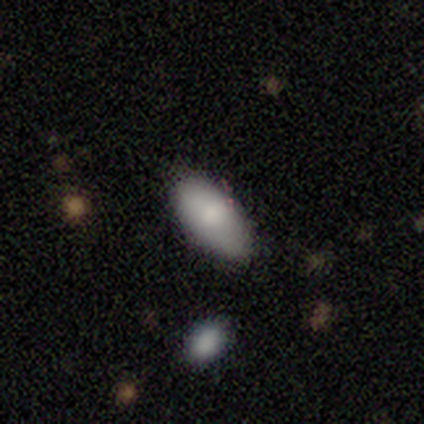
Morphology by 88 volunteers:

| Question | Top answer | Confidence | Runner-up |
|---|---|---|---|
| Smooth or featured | smooth | 84% | featured or disk (12%) |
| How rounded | in between | 93% | cigar-shaped (5%) |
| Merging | none | 80% | minor disturbance (16%) |